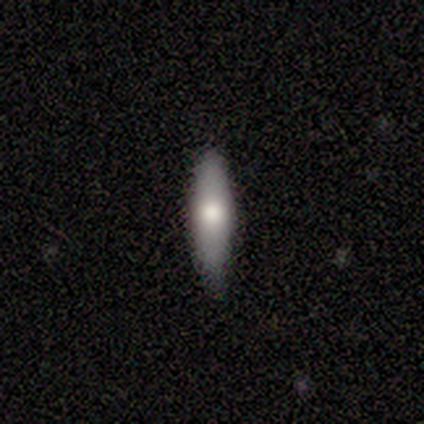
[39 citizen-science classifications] A smooth galaxy with no disk features (59%) that is cigar-shaped (87%). Merging: none (76%).